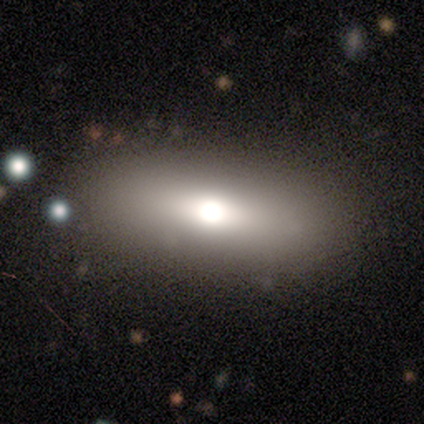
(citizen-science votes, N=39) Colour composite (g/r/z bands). It shows a smooth galaxy with no disk features (56%) that is in between round and cigar-shaped (68%). Merging: none (91%).